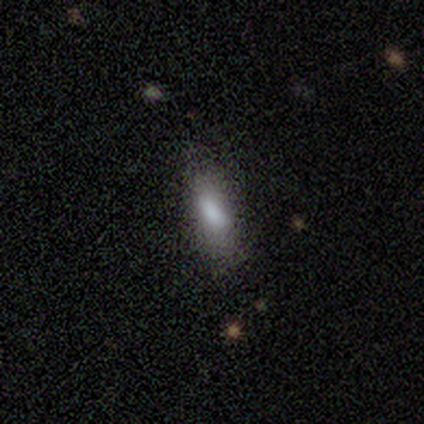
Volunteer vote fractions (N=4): This appears to be a smooth galaxy with no disk features (75%) that is in between round and cigar-shaped (100%). Merging: none (50%).